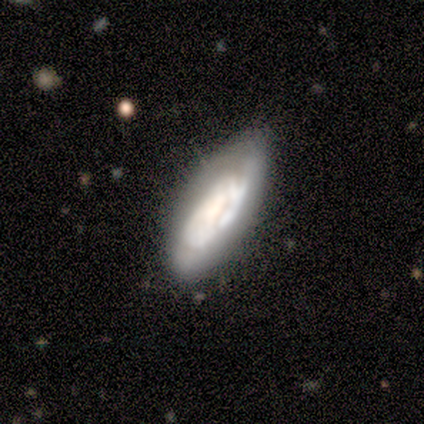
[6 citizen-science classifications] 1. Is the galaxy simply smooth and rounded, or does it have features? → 50% featured or disk, 33% smooth, 17% star or artifact.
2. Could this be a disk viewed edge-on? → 67% no, 33% yes.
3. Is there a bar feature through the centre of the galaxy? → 100% no, 0% strong, 0% weak.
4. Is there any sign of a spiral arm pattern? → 50% yes (tied), 50% no (tied).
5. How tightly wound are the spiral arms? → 100% tight, 0% medium, 0% loose.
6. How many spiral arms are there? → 100% can't tell, 0% 1, 0% 2, 0% 3, 0% 4, 0% more than 4.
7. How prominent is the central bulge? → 100% dominant, 0% large, 0% moderate, 0% small, 0% none.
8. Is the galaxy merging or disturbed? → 60% none, 40% minor disturbance, 0% major disturbance, 0% merger.